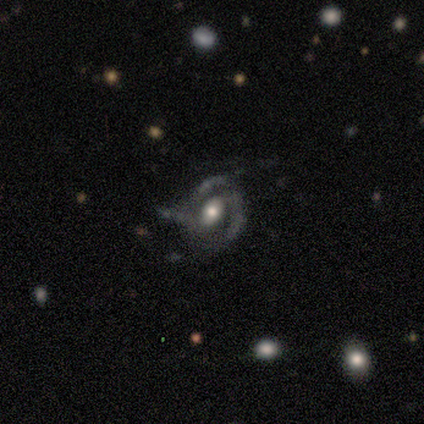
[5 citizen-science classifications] Morphology: type=featured or disk (80%); edge-on=no (100%); bar=weak (50%); spiral arms=yes (100%); winding=medium (75%); arm count=2 (50%); bulge=moderate (50%, tied with small); merging=minor disturbance (60%).